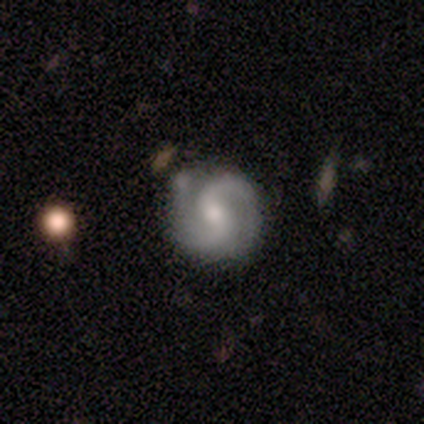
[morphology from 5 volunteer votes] A featured or disk galaxy (100%) with a strong bar (60%), 2 (100%) medium (80%) spiral arms (100%) and a moderate central bulge (80%).

Vote fractions:
- Smooth or featured? featured or disk: 100% / smooth: 0% / star or artifact: 0%
- Edge-on disk? no: 100% / yes: 0%
- Bar? strong: 60% / weak: 40% / no: 0%
- Spiral arms? yes: 100% / no: 0%
- Spiral winding? medium: 80% / loose: 20% / tight: 0%
- Spiral arm count? 2: 100% / 1: 0% / 3: 0% / 4: 0% / more than 4: 0% / can't tell: 0%
- Bulge size? moderate: 80% / small: 20% / dominant: 0% / large: 0% / none: 0%
- Merging? none: 60% / minor disturbance: 40% / major disturbance: 0% / merger: 0%